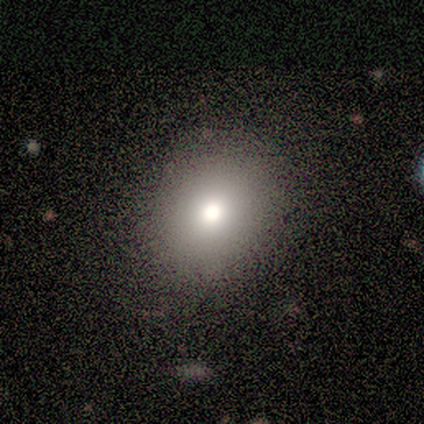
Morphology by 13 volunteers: Q: Smooth or featured?
A: smooth (77%); runner-up: featured or disk (15%)
Q: How rounded?
A: round (90%); runner-up: in between (10%)
Q: Merging?
A: none (92%); runner-up: minor disturbance (8%)